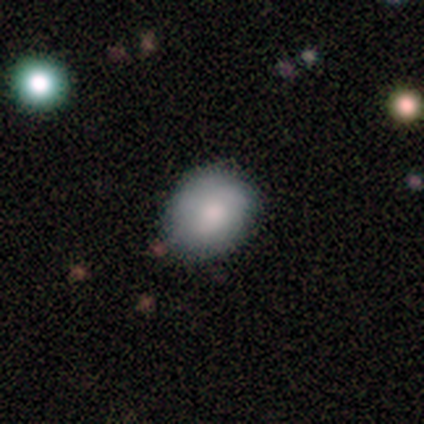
Smooth or featured: smooth — 80% (featured or disk — 14%)
How rounded: round — 55% (in between — 45%)
Merging: none — 70% (minor disturbance — 25%)